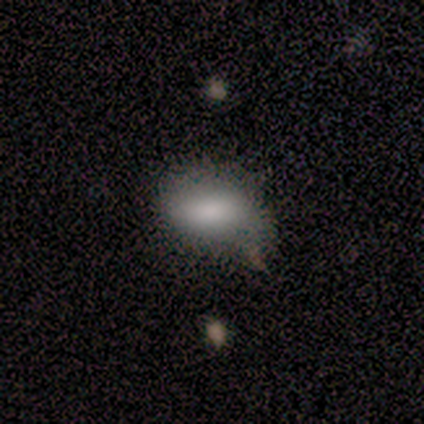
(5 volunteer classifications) Volunteers were most divided on "merging": none: 40%, minor disturbance: 20%, major disturbance: 20%, merger: 20%. More confident: smooth or featured — smooth (100%); how rounded — in between (100%).